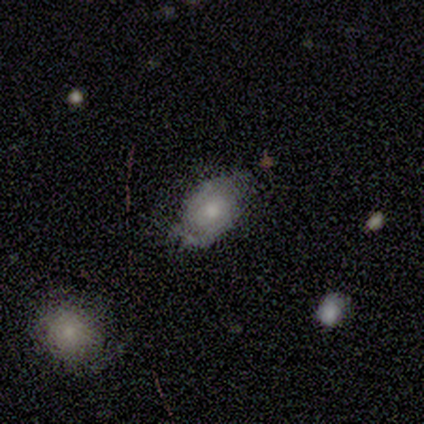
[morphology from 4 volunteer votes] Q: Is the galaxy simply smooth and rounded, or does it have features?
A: smooth — 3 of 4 (75%).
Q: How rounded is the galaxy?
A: in between — 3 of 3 (100%).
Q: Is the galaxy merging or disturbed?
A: none — 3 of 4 (75%).